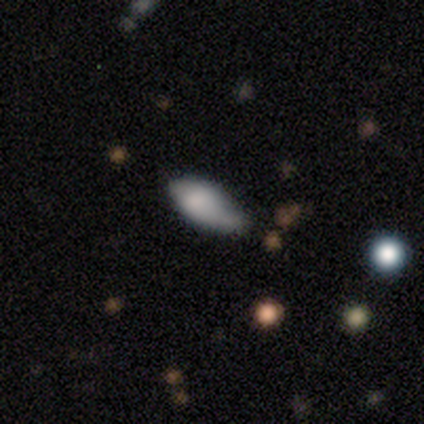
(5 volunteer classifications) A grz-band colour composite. It shows a smooth galaxy with no disk features (100%) that is in between round and cigar-shaped (80%). Merging: none (40%, tied with minor disturbance).